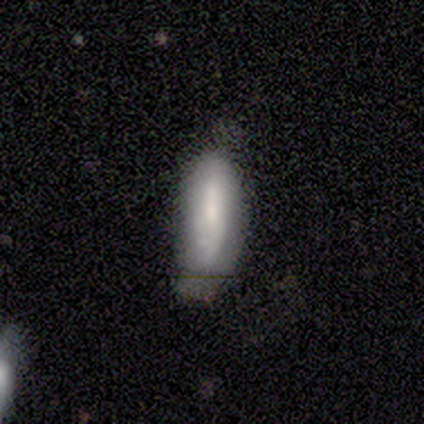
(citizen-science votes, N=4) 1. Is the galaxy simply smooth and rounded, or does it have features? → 75% smooth, 25% featured or disk, 0% star or artifact.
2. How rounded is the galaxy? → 67% in between, 33% cigar-shaped, 0% round.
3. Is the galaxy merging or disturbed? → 75% minor disturbance, 25% none, 0% major disturbance, 0% merger.